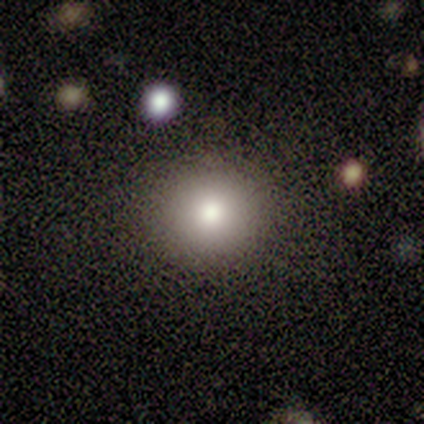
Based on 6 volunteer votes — Smooth or featured: smooth — 100%
How rounded: round — 100%
Merging: none — 100%